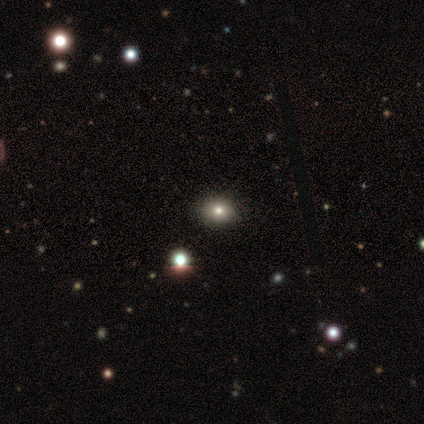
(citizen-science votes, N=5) Volunteers were most divided on "how rounded" (2-way tie): round: 50%, in between: 50%, cigar-shaped: 0%. More confident: smooth or featured — smooth (80%); merging — none (75%).